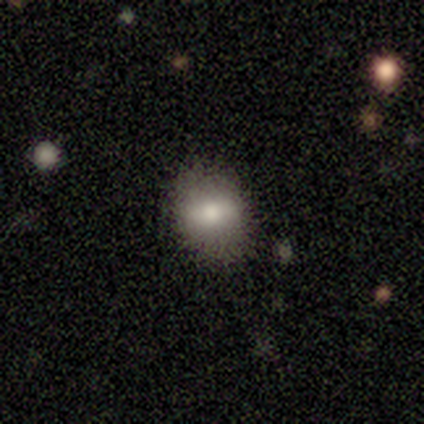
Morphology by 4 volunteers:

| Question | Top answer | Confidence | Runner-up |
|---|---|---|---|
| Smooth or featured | featured or disk | 50% | smooth (25%) |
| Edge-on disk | no | 100% | — |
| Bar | strong | 50% | tied: no (50%) |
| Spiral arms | yes | 50% | tied: no (50%) |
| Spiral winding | medium | 100% | — |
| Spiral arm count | can't tell | 100% | — |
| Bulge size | large | 50% | tied: moderate (50%) |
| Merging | none | 67% | minor disturbance (33%) |